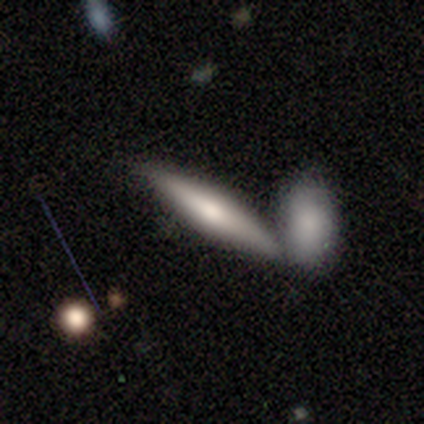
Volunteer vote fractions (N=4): Morphology: type=smooth (75%); roundness=cigar-shaped (100%); merging=minor disturbance (50%).